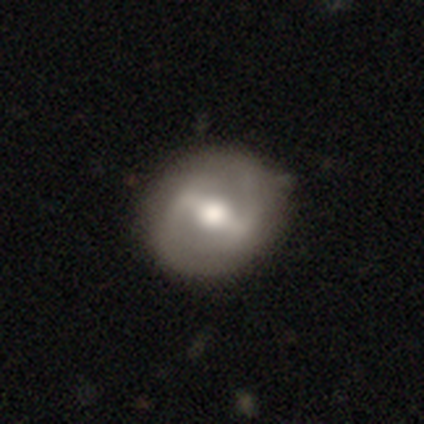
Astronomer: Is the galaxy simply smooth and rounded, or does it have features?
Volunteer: featured or disk — 82%.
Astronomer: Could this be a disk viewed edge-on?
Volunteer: no — 97%.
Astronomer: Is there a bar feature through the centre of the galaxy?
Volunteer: strong — 77%.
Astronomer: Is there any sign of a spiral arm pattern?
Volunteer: yes — 65%.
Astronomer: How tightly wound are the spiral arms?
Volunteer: loose — 55% (runner-up: medium, 35%).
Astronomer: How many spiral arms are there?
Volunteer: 2 — 80%.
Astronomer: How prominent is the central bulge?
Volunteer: moderate — 61%.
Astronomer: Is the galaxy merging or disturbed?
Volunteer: none — 51%.